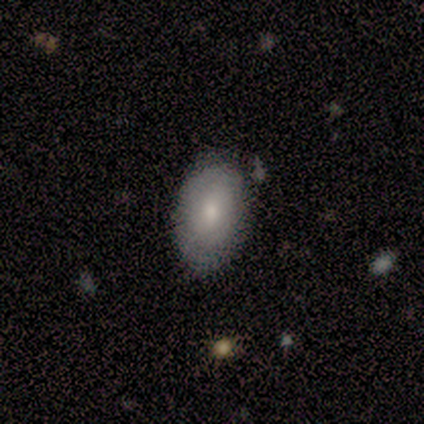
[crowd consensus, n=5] Morphology: type=smooth (80%); roundness=in between (100%); merging=none (80%).